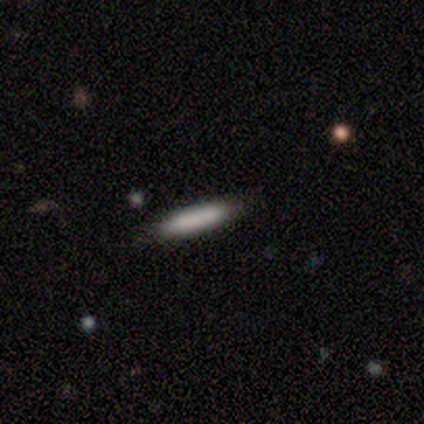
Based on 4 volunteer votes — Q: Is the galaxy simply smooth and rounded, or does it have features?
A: smooth — 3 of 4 (75%).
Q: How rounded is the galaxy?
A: cigar-shaped — 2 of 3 (67%).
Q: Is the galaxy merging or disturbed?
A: none — 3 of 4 (75%).